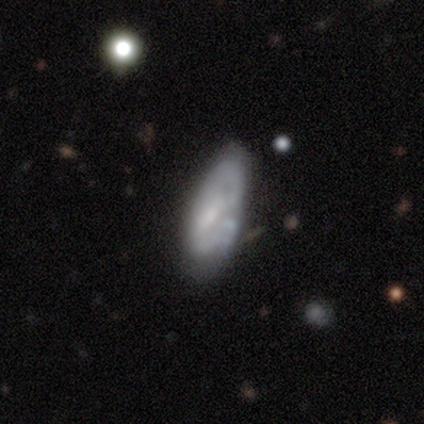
Smooth or featured? featured or disk (100%)
Edge-on disk? no (83%)
Bar? no (80%)
Spiral arms? yes (60%)
Spiral winding? tight (67%)
Spiral arm count? can't tell (67%)
Bulge size? small (80%)
Merging? none (50%, tied with minor disturbance)